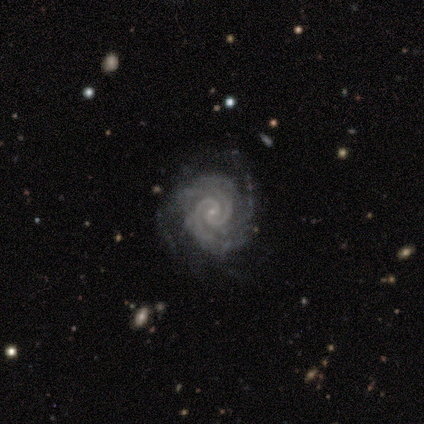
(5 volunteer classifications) smooth_or_featured: featured or disk (p=1.00)
disk_edge_on: no (p=1.00)
bar: no (p=0.60) [alt: weak p=0.40]
has_spiral_arms: yes (p=1.00)
spiral_winding: tight (p=1.00)
spiral_arm_count: 2 (p=0.40) [tied with: 3 p=0.40]
bulge_size: small (p=1.00)
merging: none (p=1.00)